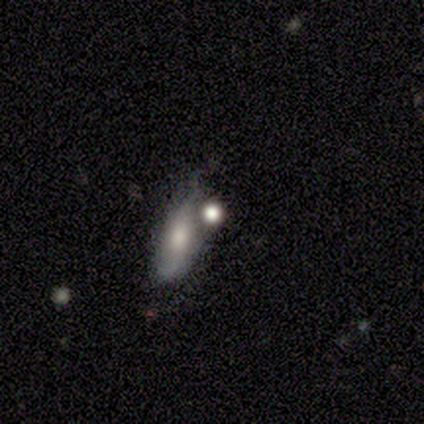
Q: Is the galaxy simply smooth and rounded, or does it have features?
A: smooth — 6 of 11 (55%).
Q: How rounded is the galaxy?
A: round — 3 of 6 (50%, tied with in between).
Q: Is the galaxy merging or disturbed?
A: none — 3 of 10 (30%, tied with merger).